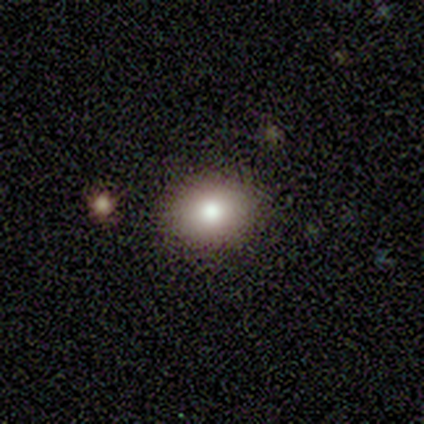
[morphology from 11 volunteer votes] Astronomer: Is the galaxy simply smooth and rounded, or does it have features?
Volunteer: smooth — 91%.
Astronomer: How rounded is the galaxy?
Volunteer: in between — 60% (runner-up: round, 40%).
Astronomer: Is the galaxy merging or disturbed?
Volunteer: none — 90%.